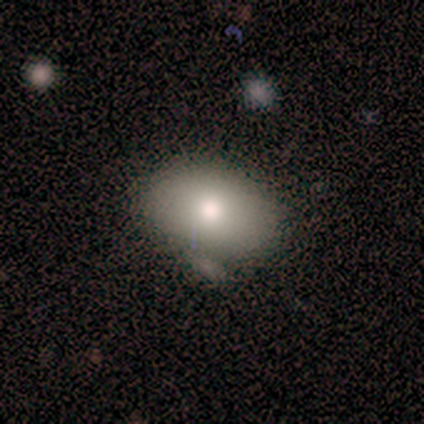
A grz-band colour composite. It shows a smooth galaxy with no disk features (80%) that is in between round and cigar-shaped (75%). Merging: none (75%).